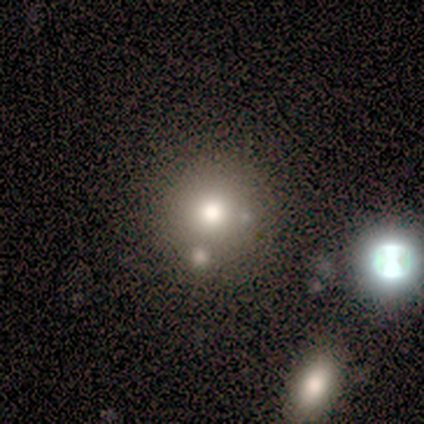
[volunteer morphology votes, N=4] Smooth or featured? smooth (75%)
How rounded? round (100%)
Merging? none (50%)